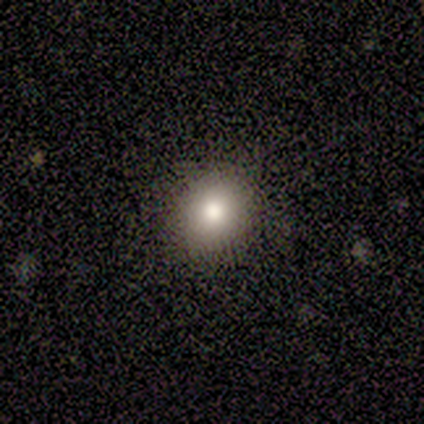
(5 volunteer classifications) Overall: smooth (100%). How rounded: round (100%). Merging: none (100%).